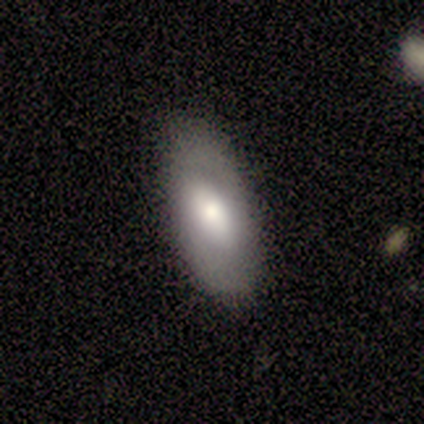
Morphology: type=smooth (80%); roundness=in between (100%); merging=none (100%).